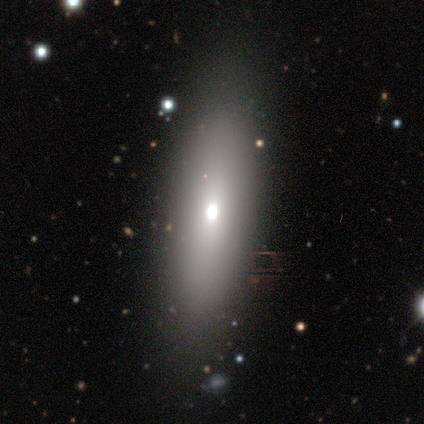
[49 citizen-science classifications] A smooth galaxy with no disk features (51%) that is in between round and cigar-shaped (56%). Merging: none (76%).